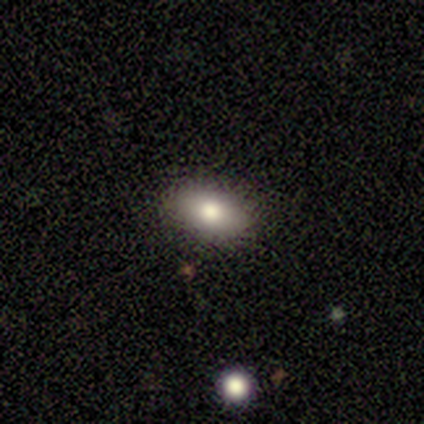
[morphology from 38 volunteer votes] Smooth or featured?
  - smooth: 76% *
  - star or artifact: 13%
  - featured or disk: 11%
How rounded?
  - in between: 83% *
  - round: 14%
  - cigar-shaped: 3%
Merging?
  - none: 85% *
  - minor disturbance: 9%
  - major disturbance: 6%
  - merger: 0%